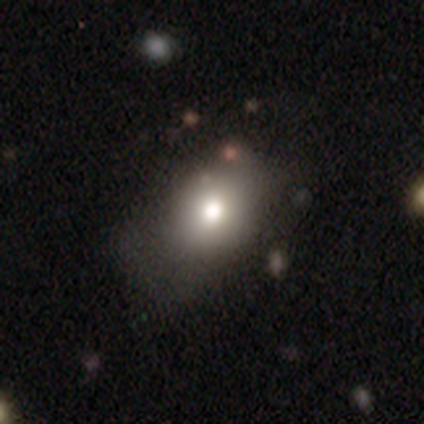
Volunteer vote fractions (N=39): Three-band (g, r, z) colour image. It shows a smooth galaxy with no disk features (72%) that is in between round and cigar-shaped (71%). Merging: none (62%).